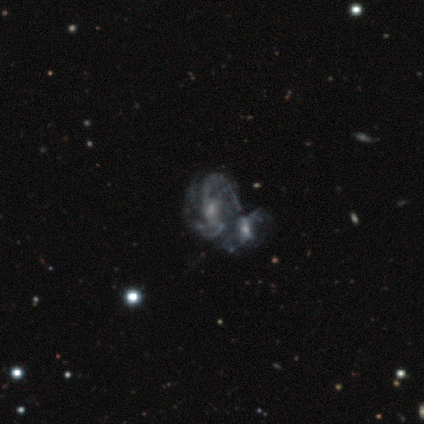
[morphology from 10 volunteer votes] featured or disk 70%, star or artifact 20%, smooth 10%. Down the decision tree: edge-on disk — no (100%); bar — no (86%); spiral arms — yes (71%); spiral arm count — 2 (60%); spiral winding — medium (40%, tied with loose); bulge size — small (57%); merging — merger (88%).